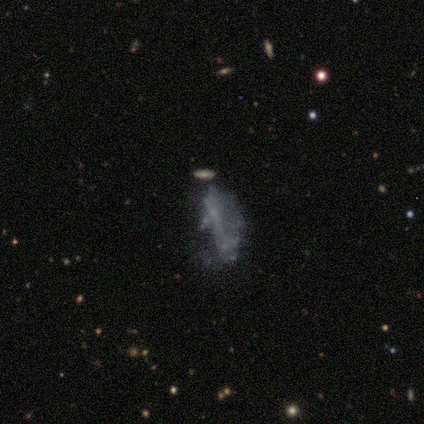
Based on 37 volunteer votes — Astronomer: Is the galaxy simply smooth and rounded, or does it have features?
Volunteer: featured or disk — 49% (runner-up: star or artifact, 30%).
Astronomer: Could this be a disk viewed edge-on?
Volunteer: no — 94%.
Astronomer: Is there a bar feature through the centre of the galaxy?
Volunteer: no — 82%.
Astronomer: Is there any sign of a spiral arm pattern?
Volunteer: no — 82%.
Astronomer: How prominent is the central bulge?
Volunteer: none — 88%.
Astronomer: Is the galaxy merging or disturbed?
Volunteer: none — 35%, tied with major disturbance at 35%.